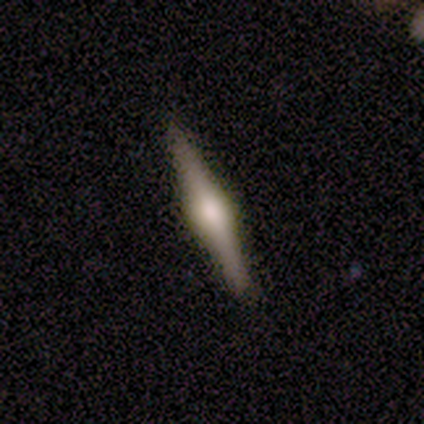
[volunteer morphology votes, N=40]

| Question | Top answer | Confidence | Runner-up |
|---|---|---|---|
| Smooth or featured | featured or disk | 78% | smooth (22%) |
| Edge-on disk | yes | 90% | no (10%) |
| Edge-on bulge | rounded | 79% | boxy (21%) |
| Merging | none | 95% | minor disturbance (5%) |